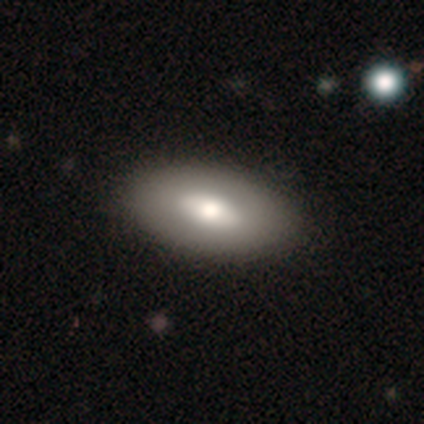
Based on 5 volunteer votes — This is clearly a smooth galaxy (80%). How rounded: clearly in between (100%). Merging: clearly none (100%).